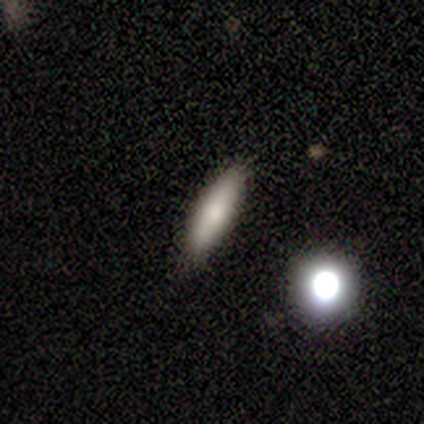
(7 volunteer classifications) This appears to be a smooth galaxy with no disk features (86%) that is cigar-shaped (67%). Merging: none (100%).